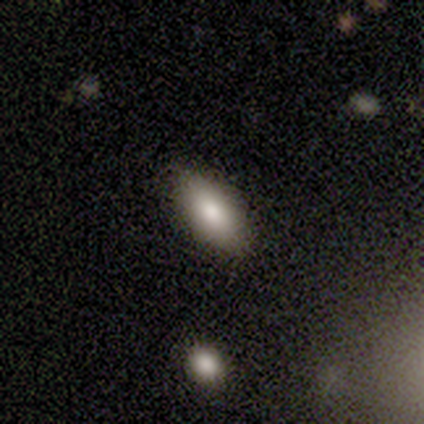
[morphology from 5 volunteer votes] type=smooth (100%); roundness=in between (100%); merging=none (80%).